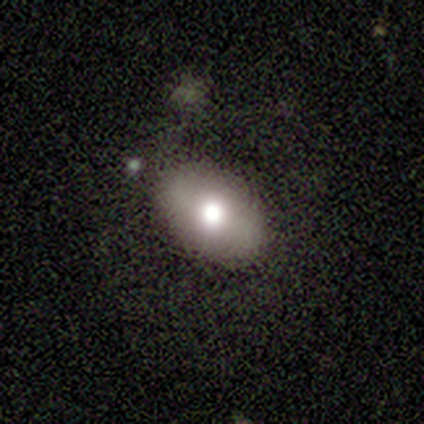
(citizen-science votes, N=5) Overall: smooth (80%). How rounded: in between (75%). Merging: none (75%).